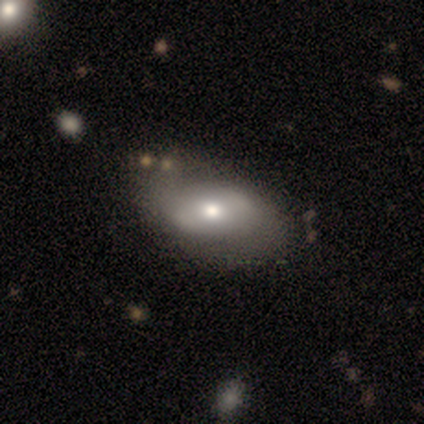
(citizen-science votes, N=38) Overall: smooth (61%; featured or disk 37%). How rounded: in between (96%). Merging: none (35%; minor disturbance 22%).